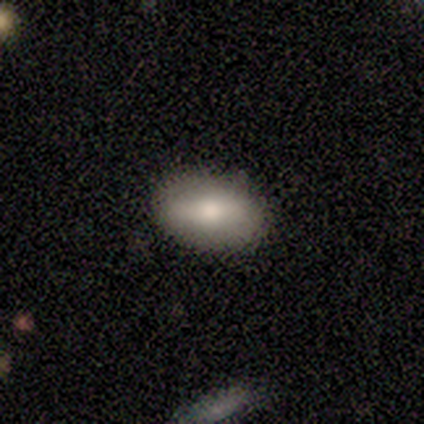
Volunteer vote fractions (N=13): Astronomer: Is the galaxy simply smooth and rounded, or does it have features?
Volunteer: smooth — 69%.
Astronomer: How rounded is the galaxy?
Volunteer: in between — 100%.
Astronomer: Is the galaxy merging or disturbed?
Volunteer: none — 67%.